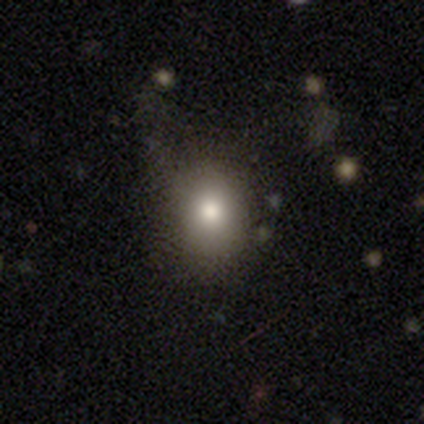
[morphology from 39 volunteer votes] Smooth or featured: smooth — 74% (featured or disk — 13%)
How rounded: round — 69% (in between — 31%)
Merging: none — 74% (minor disturbance — 21%)